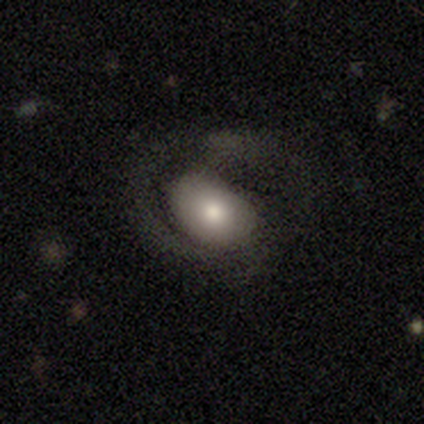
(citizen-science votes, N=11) smooth-or-featured: smooth: 64% | featured or disk: 27% | star or artifact: 9%
  how-rounded: in between: 100% | round: 0% | cigar-shaped: 0%
  merging: none: 40% | minor disturbance: 30% | major disturbance: 30% | merger: 0%